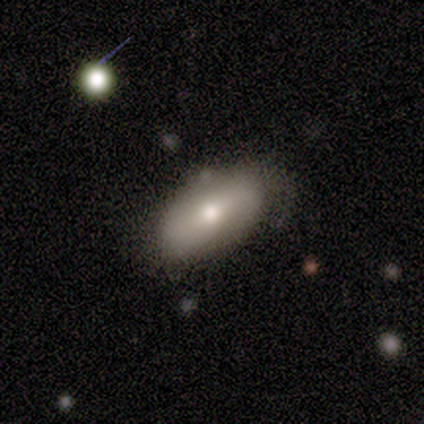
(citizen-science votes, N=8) smooth 75%, featured or disk 12%, star or artifact 12%. Down the decision tree: how rounded — in between (100%); merging — none (57%).